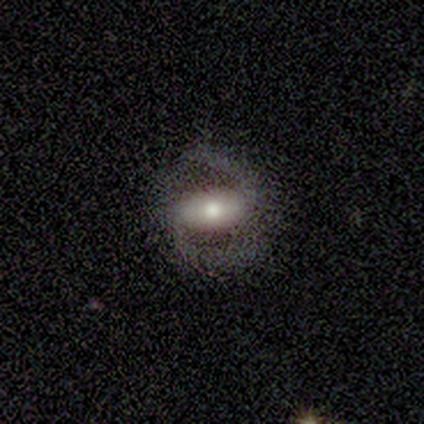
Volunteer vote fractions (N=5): Smooth or featured?
  - featured or disk: 100% *
  - smooth: 0%
  - star or artifact: 0%
Edge-on disk?
  - no: 100% *
  - yes: 0%
Bar?
  - strong: 80% *
  - no: 20%
  - weak: 0%
Spiral arms?
  - yes: 80% *
  - no: 20%
Spiral winding?
  - medium: 50% *
  - tight: 25%
  - loose: 25%
Spiral arm count?
  - 2: 100% *
  - 1: 0%
  - 3: 0%
  - 4: 0%
  - more than 4: 0%
  - can't tell: 0%
Bulge size?
  - moderate: 80% *
  - small: 20%
  - dominant: 0%
  - large: 0%
  - none: 0%
Merging?
  - none: 100% *
  - minor disturbance: 0%
  - major disturbance: 0%
  - merger: 0%